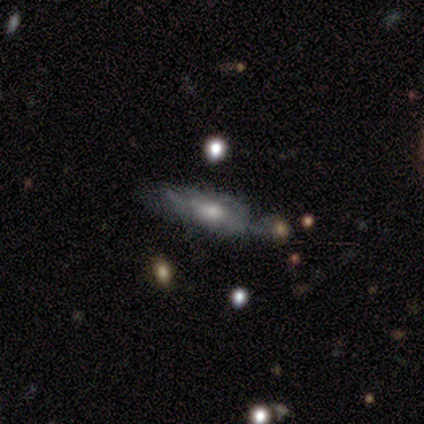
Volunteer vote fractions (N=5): smooth_or_featured: featured or disk (p=0.60) [alt: smooth p=0.40]
disk_edge_on: no (p=1.00)
bar: no (p=0.67) [alt: weak p=0.33]
has_spiral_arms: yes (p=0.67) [alt: no p=0.33]
spiral_winding: tight (p=0.50) [tied with: medium p=0.50]
spiral_arm_count: can't tell (p=1.00)
bulge_size: moderate (p=0.67) [alt: small p=0.33]
merging: minor disturbance (p=0.60) [alt: none p=0.20]